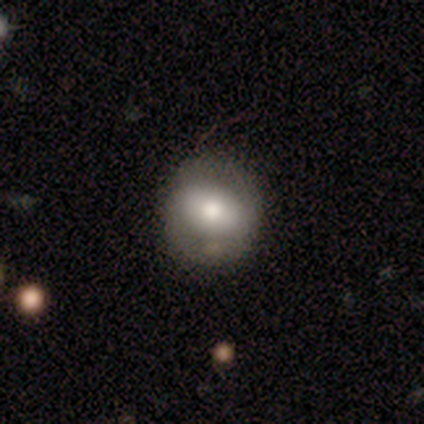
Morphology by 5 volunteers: Smooth or featured? 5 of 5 (100%) said smooth. How rounded? 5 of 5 (100%) said round. Merging? 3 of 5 (60%) said none.